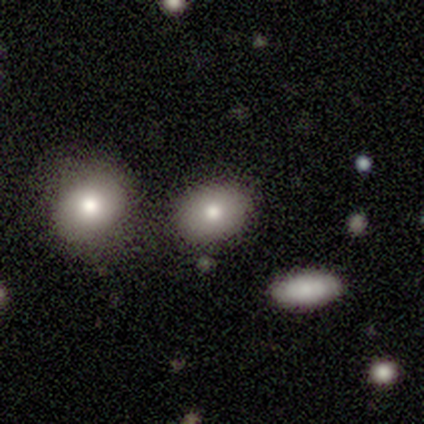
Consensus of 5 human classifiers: Smooth or featured: smooth — 80% (featured or disk — 20%)
How rounded: round — 50% (tied with in between — 50%)
Merging: none — 80% (minor disturbance — 20%)